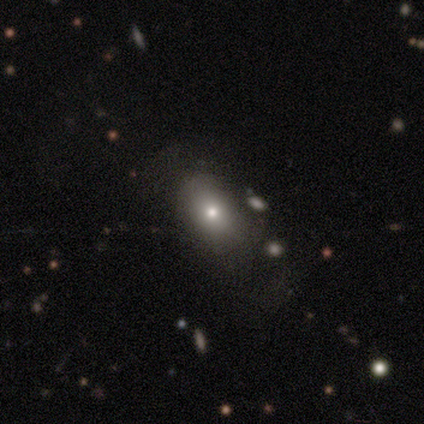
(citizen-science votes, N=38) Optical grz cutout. It shows a smooth galaxy with no disk features (79%) that is in between round and cigar-shaped (80%). Merging: none (72%).